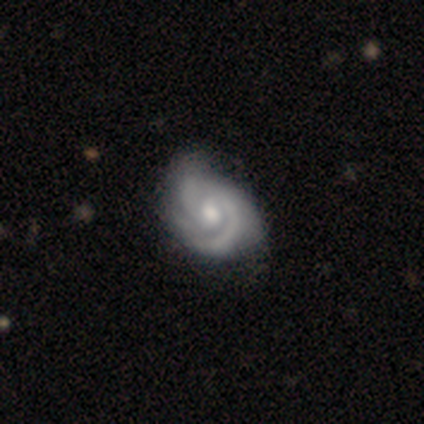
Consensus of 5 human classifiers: This appears to be a featured or disk galaxy (100%) with no bar (75%), 2 (75%) tight (75%) spiral arms (100%) and a moderate central bulge (100%). Merging: minor disturbance (60%).